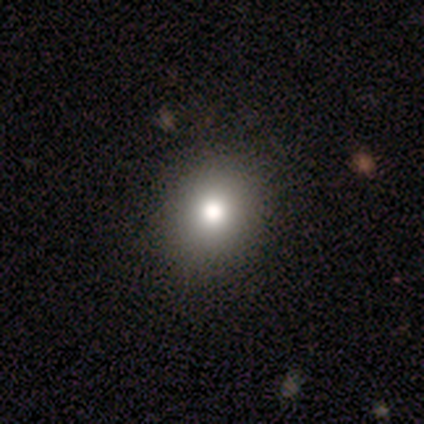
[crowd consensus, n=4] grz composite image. It shows a smooth galaxy with no disk features (100%) that is round (75%). Merging: none (100%).